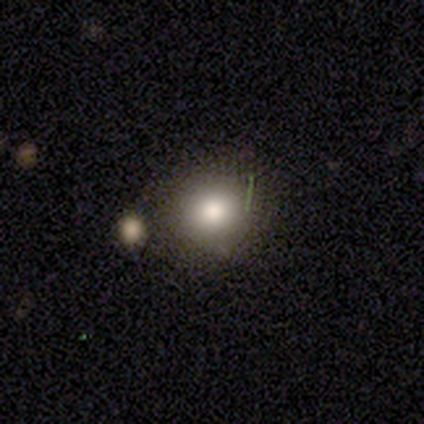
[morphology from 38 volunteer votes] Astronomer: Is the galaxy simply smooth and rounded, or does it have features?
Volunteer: smooth — 66%.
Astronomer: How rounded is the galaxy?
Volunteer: round — 80%.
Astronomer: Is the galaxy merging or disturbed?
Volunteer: none — 74%.